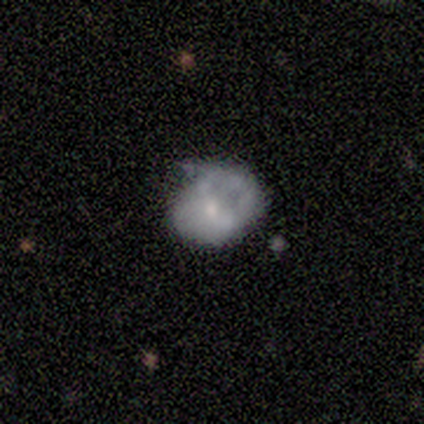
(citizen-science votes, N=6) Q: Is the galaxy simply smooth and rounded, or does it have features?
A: smooth — 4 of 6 (67%).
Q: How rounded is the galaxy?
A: round — 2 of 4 (50%, tied with in between).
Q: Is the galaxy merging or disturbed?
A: none — 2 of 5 (40%, tied with minor disturbance).